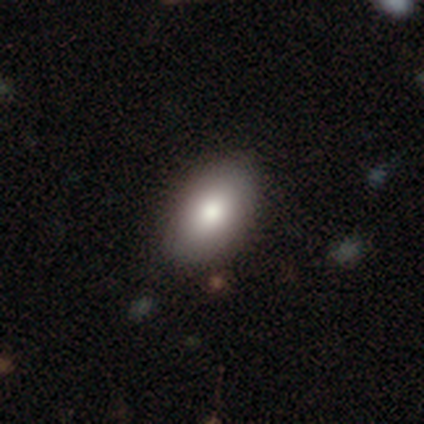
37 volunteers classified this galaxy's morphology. Smooth or featured? smooth (68%)
How rounded? in between (100%)
Merging? none (82%)